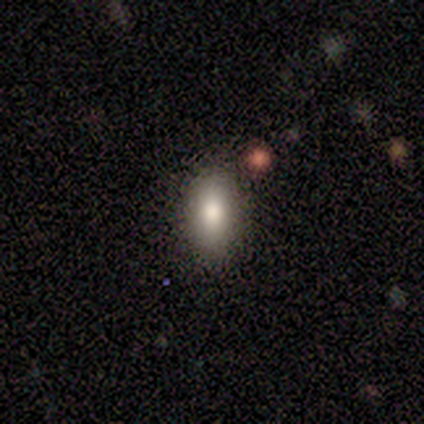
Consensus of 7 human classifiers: smooth 100%, featured or disk 0%, star or artifact 0%. Down the decision tree: how rounded — in between (86%); merging — none (86%).